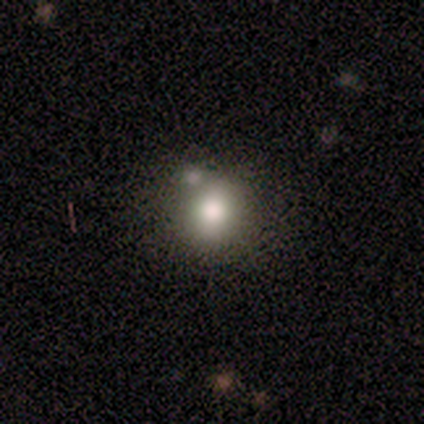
Overall: smooth (60%; featured or disk 40%). How rounded: in between (67%; round 33%). Merging: none (40%, tied with merger).